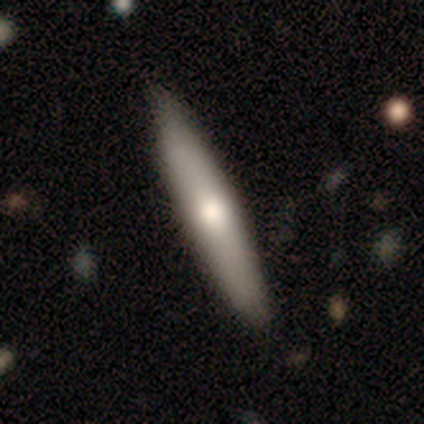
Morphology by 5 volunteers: type=smooth (100%); roundness=cigar-shaped (80%); merging=none (80%).